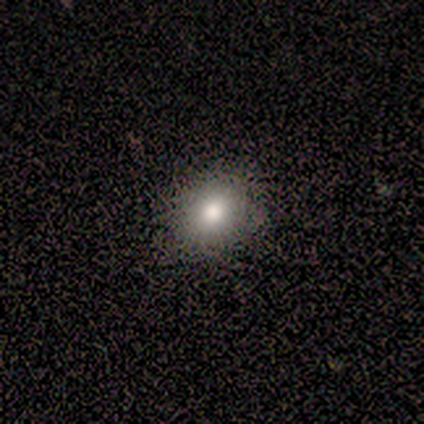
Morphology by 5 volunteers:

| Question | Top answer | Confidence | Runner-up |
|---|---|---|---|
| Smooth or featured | smooth | 100% | — |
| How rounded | round | 80% | in between (20%) |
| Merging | none | 100% | — |